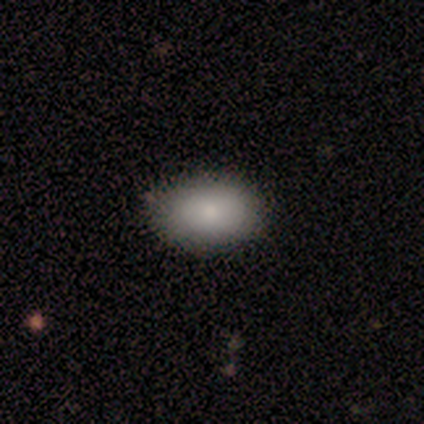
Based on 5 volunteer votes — Smooth or featured: smooth — 100%
How rounded: in between — 100%
Merging: none — 80% (minor disturbance — 20%)